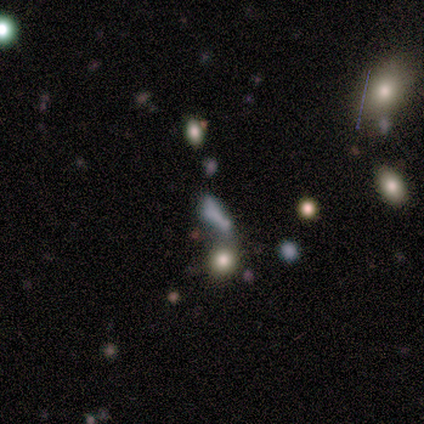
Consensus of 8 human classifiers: A smooth galaxy with no disk features (38%, tied with star or artifact) that is in between round and cigar-shaped (100%). Merging: none (60%).